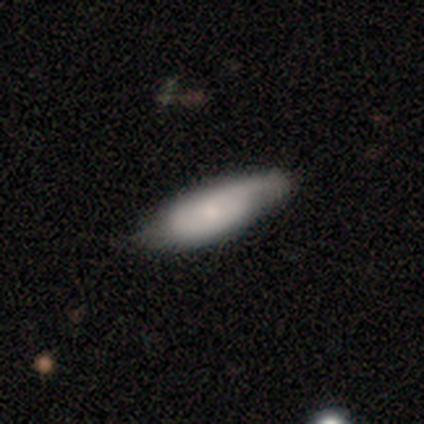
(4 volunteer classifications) This appears to be a featured or disk galaxy (50%) with a weak bar (50%, tied with no), 1 (50%, tied with 2) tight (50%, tied with medium) spiral arms (100%) and a large central bulge (50%, tied with moderate). Merging: minor disturbance (67%).